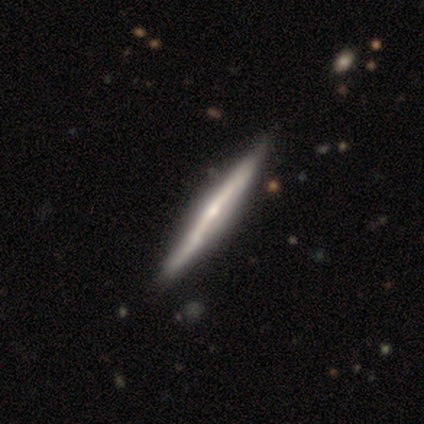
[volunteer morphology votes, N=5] Q: Smooth or featured?
A: featured or disk (100%)
Q: Edge-on disk?
A: yes (100%)
Q: Edge-on bulge?
A: rounded (80%); runner-up: boxy (20%)
Q: Merging?
A: none (100%)